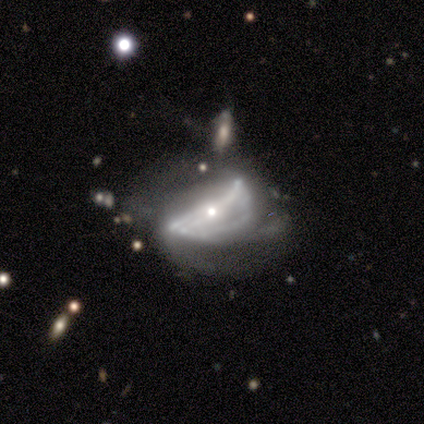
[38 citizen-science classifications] This appears to be a featured or disk galaxy (79%) with a strong bar (43%), no spiral arms (54%) and a small central bulge (79%). Merging: major disturbance (44%).